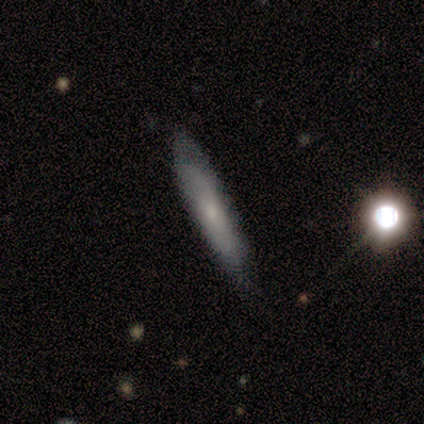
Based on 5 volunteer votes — Overall: featured or disk (60%; smooth 40%). Edge-on disk: yes (67%; no 33%). Edge-on bulge: none (100%). Merging: none (80%).